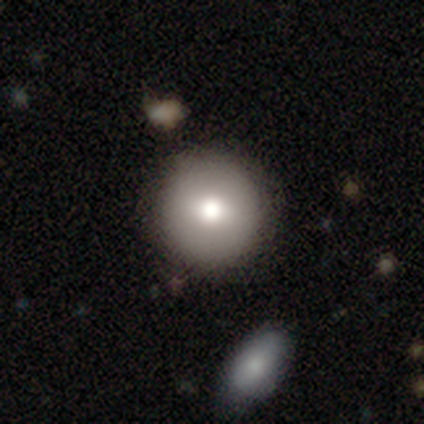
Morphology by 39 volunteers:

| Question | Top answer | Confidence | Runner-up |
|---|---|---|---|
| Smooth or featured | smooth | 87% | star or artifact (8%) |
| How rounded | round | 100% | — |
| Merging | none | 69% | merger (6%) |